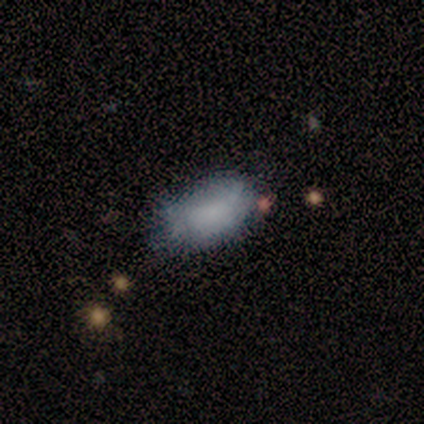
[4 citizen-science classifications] This is likely a smooth galaxy (75%). How rounded: clearly in between (100%). Merging: likely none (67%).